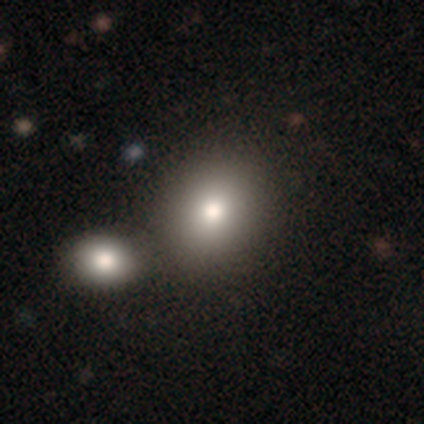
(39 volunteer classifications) This is likely a smooth galaxy (69%). How rounded: likely round (67%). Merging: possibly none (51%).